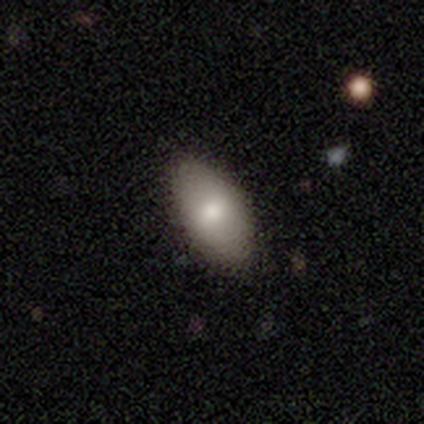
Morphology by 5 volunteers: Overall: smooth (100%). How rounded: in between (100%). Merging: none (80%).